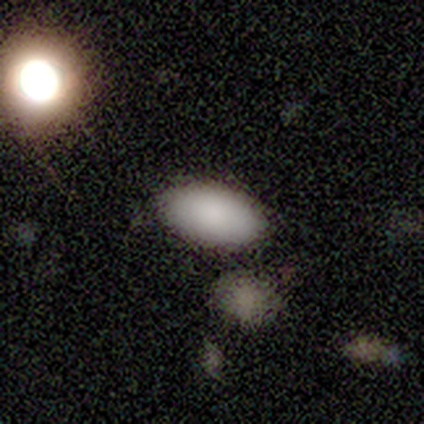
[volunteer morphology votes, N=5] A smooth galaxy with no disk features (80%) that is in between round and cigar-shaped (75%). Merging: none (100%).